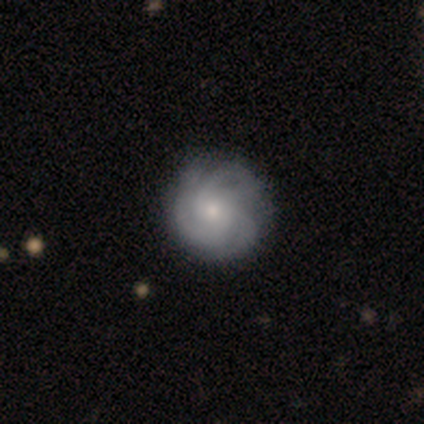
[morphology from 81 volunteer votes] Q: Smooth or featured?
A: featured or disk (69%); runner-up: smooth (25%)
Q: Edge-on disk?
A: no (100%)
Q: Bar?
A: no (84%); runner-up: weak (16%)
Q: Spiral arms?
A: yes (95%); runner-up: no (5%)
Q: Spiral winding?
A: tight (77%); runner-up: medium (23%)
Q: Spiral arm count?
A: 3 (36%); runner-up: can't tell (30%)
Q: Bulge size?
A: small (54%); runner-up: moderate (36%)
Q: Merging?
A: none (79%); runner-up: minor disturbance (13%)